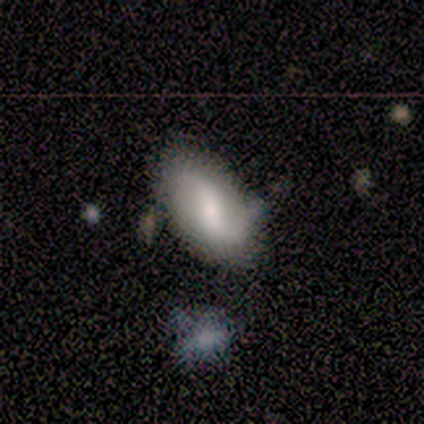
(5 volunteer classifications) This appears to be a featured or disk galaxy (60%) with a weak bar (100%), 2 (100%) loose (100%) spiral arms (100%) and a small central bulge (67%). Merging: none (60%).